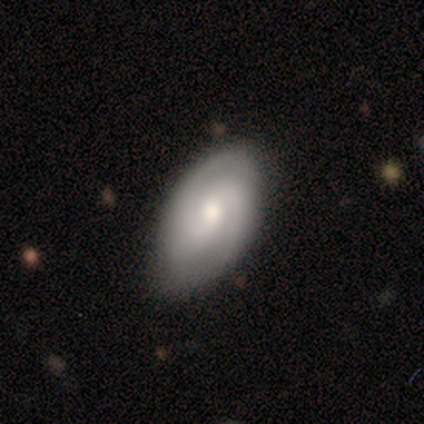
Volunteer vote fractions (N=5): A featured or disk galaxy (60%) with no bar (100%), 2 (50%, tied with can't tell) tight (50%, tied with medium) spiral arms (67%) and a moderate central bulge (67%).

Vote fractions:
- Smooth or featured? featured or disk: 60% / smooth: 40% / star or artifact: 0%
- Edge-on disk? no: 100% / yes: 0%
- Bar? no: 100% / strong: 0% / weak: 0%
- Spiral arms? yes: 67% / no: 33%
- Spiral winding? tight: 50% (tied) / medium: 50% (tied) / loose: 0%
- Spiral arm count? 2: 50% (tied) / can't tell: 50% (tied) / 1: 0% / 3: 0% / 4: 0% / more than 4: 0%
- Bulge size? moderate: 67% / dominant: 33% / large: 0% / small: 0% / none: 0%
- Merging? none: 100% / minor disturbance: 0% / major disturbance: 0% / merger: 0%